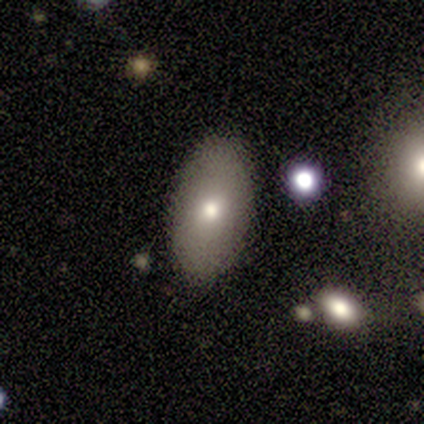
A smooth galaxy with no disk features (60%) that is in between round and cigar-shaped (100%).

Vote fractions:
- Smooth or featured? smooth: 60% / featured or disk: 40% / star or artifact: 0%
- How rounded? in between: 100% / round: 0% / cigar-shaped: 0%
- Merging? none: 100% / minor disturbance: 0% / major disturbance: 0% / merger: 0%